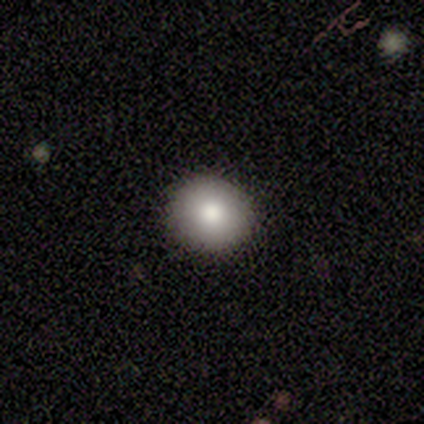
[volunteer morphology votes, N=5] Smooth or featured? 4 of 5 (80%) said smooth. How rounded? 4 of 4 (100%) said round. Merging? 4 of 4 (100%) said none.